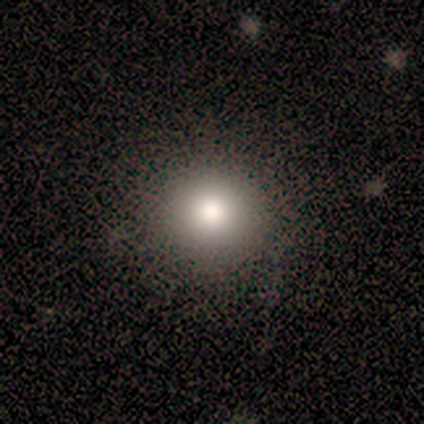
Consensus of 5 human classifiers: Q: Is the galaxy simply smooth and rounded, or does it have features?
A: smooth — 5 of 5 (100%).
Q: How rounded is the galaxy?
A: round — 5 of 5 (100%).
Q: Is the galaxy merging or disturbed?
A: none — 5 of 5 (100%).